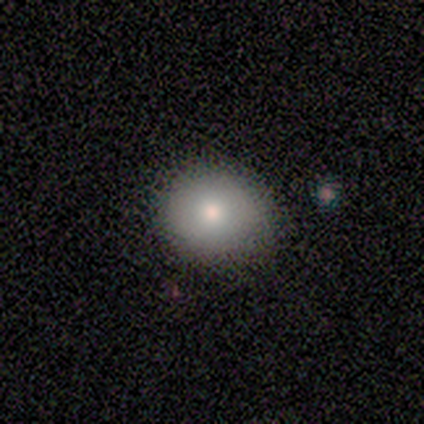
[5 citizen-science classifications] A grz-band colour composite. It shows a smooth galaxy with no disk features (60%) that is round (100%). Merging: none (100%).